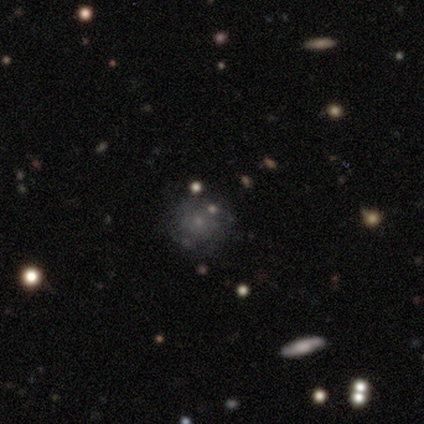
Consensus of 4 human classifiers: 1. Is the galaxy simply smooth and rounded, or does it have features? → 75% smooth, 25% star or artifact, 0% featured or disk.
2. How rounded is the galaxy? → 100% round, 0% in between, 0% cigar-shaped.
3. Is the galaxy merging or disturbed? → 67% none, 33% major disturbance, 0% minor disturbance, 0% merger.